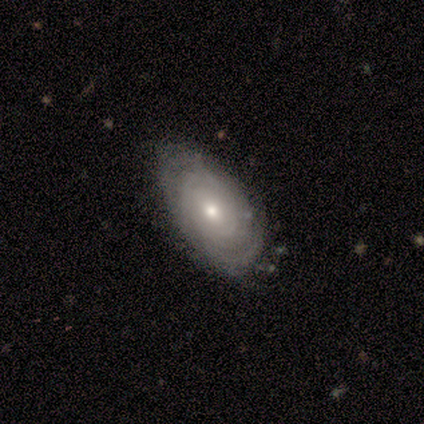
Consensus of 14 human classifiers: Smooth or featured: featured or disk — 93% (smooth — 7%)
Edge-on disk: no — 92% (yes — 8%)
Bar: no — 83% (weak — 17%)
Spiral arms: yes — 92% (no — 8%)
Spiral winding: tight — 82% (loose — 18%)
Spiral arm count: can't tell — 73% (2 — 9%)
Bulge size: small — 67% (moderate — 33%)
Merging: none — 79% (minor disturbance — 21%)